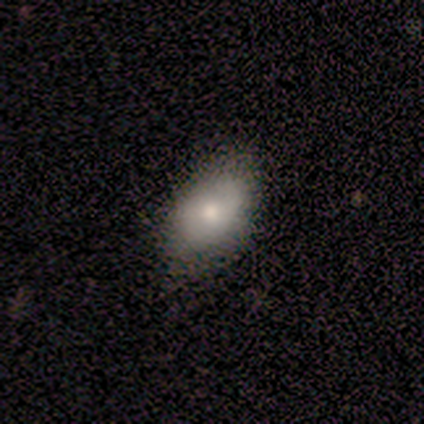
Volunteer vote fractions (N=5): smooth 80%, featured or disk 20%, star or artifact 0%. Down the decision tree: how rounded — in between (75%); merging — none (40%, tied with minor disturbance).